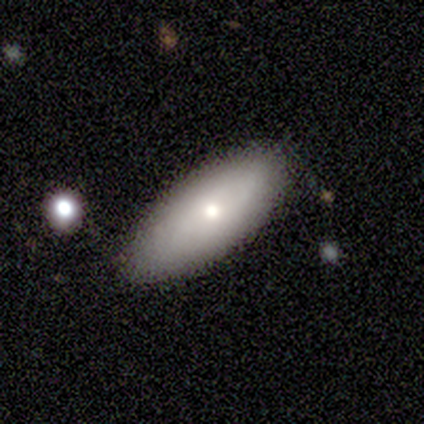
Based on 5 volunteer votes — smooth_or_featured: smooth (p=0.60) [alt: featured or disk p=0.40]
how_rounded: in between (p=0.67) [alt: cigar-shaped p=0.33]
merging: none (p=1.00)